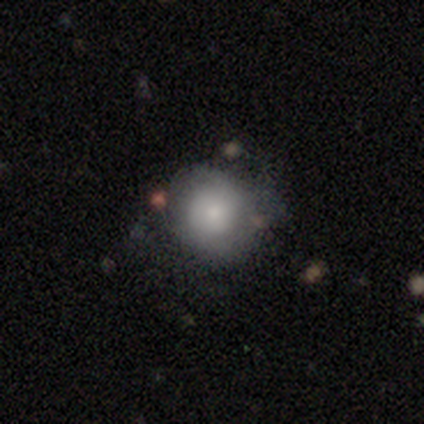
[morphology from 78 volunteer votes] Smooth or featured: smooth — 72% (featured or disk — 24%)
How rounded: round — 88% (in between — 12%)
Merging: none — 29% (minor disturbance — 15%)